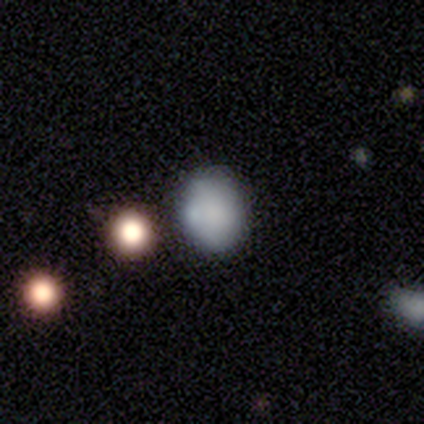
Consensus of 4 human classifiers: smooth_or_featured: smooth (p=0.50) [tied with: featured or disk p=0.50]
how_rounded: round (p=1.00)
merging: none (p=0.50) [alt: minor disturbance p=0.25]